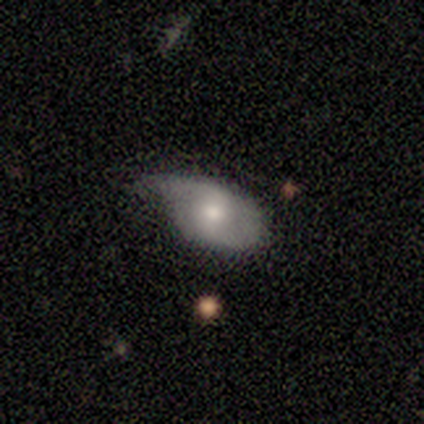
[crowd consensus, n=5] Smooth or featured?
  - smooth: 80% *
  - featured or disk: 20%
  - star or artifact: 0%
How rounded?
  - in between: 75% *
  - round: 25%
  - cigar-shaped: 0%
Merging?
  - minor disturbance: 100% *
  - none: 0%
  - major disturbance: 0%
  - merger: 0%